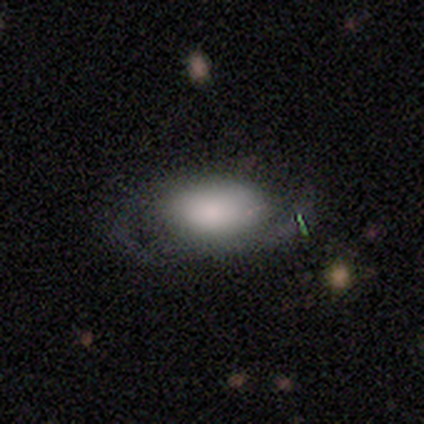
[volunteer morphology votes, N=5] Q: Smooth or featured?
A: smooth (60%); runner-up: featured or disk (40%)
Q: How rounded?
A: in between (100%)
Q: Merging?
A: none (60%); runner-up: minor disturbance (20%)